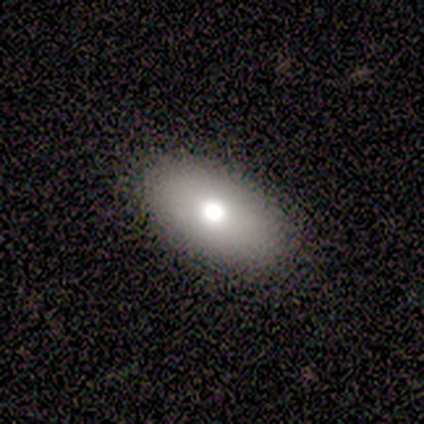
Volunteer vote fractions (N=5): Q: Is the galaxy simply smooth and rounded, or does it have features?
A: smooth — 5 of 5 (100%).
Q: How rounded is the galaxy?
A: in between — 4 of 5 (80%).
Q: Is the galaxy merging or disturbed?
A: none — 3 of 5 (60%).